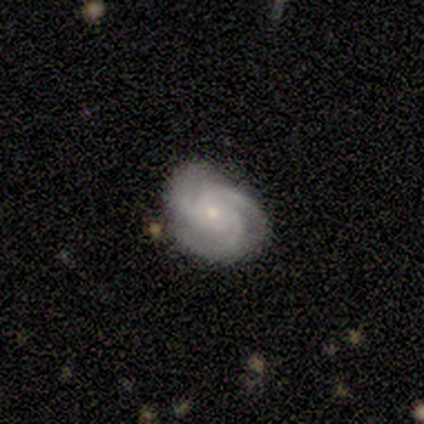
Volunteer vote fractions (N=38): smooth-or-featured: featured or disk: 92% | smooth: 8% | star or artifact: 0%
  disk-edge-on: no: 100% | yes: 0%
    bar: no: 77% | weak: 14% | strong: 9%
    has-spiral-arms: yes: 100% | no: 0%
      spiral-winding: tight: 49% | medium: 43% | loose: 9%
      spiral-arm-count: 3: 94% | 2: 3% | can't tell: 3% | 1: 0% | 4: 0% | more than 4: 0%
    bulge-size: small: 57% | moderate: 40% | none: 3% | dominant: 0% | large: 0%
  merging: none: 71% | minor disturbance: 26% | major disturbance: 3% | merger: 0%